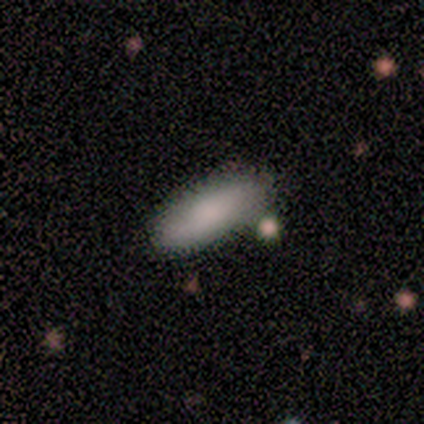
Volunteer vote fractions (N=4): Smooth or featured? 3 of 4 (75%) said smooth. How rounded? 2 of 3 (67%) said in between. Merging? 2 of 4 (50%) said none.